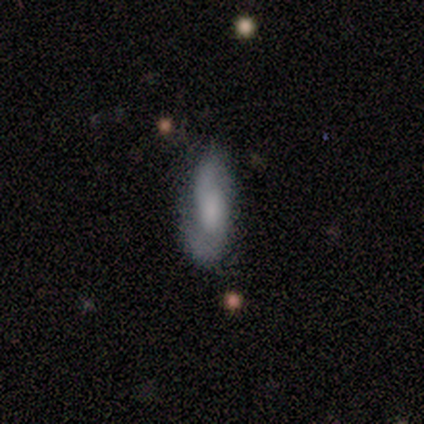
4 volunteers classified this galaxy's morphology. This is possibly a smooth galaxy (50%, tied with featured or disk). How rounded: clearly in between (100%). Merging: clearly none (100%).